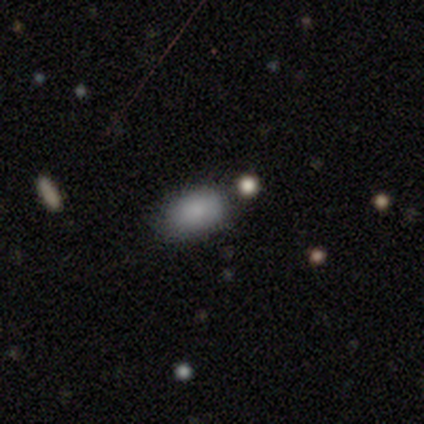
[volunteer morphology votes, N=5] Smooth or featured? 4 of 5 (80%) said smooth. How rounded? 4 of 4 (100%) said in between. Merging? 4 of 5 (80%) said none.